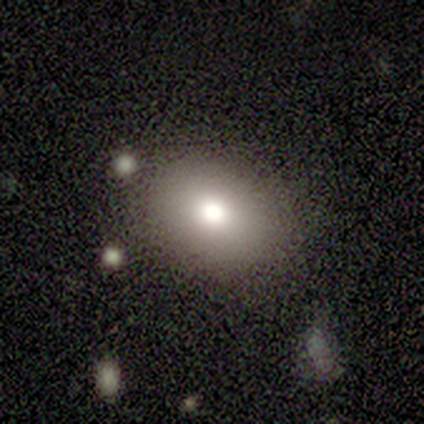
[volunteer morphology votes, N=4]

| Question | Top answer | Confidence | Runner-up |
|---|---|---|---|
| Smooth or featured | smooth | 100% | — |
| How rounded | round | 50% | tied: in between (50%) |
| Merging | none | 75% | minor disturbance (25%) |